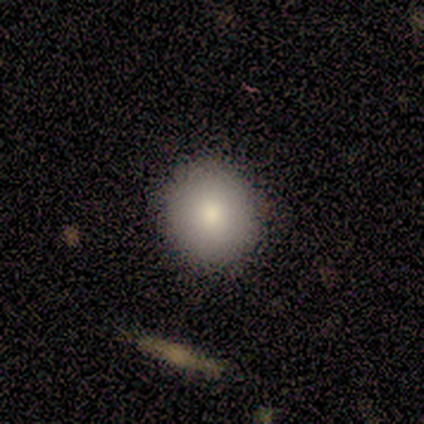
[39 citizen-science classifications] Smooth or featured? smooth (87%)
How rounded? round (94%)
Merging? none (74%)